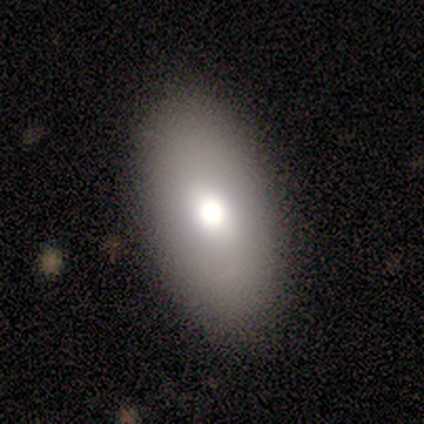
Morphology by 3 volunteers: Consensus on every question: smooth or featured — smooth (100%); how rounded — in between (100%); merging — none (100%).